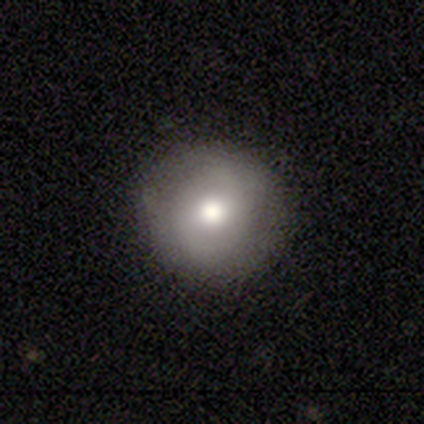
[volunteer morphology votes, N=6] A smooth galaxy with no disk features (50%, tied with featured or disk) that is round (100%).

Vote fractions:
- Smooth or featured? smooth: 50% (tied) / featured or disk: 50% (tied) / star or artifact: 0%
- How rounded? round: 100% / in between: 0% / cigar-shaped: 0%
- Merging? none: 83% / minor disturbance: 17% / major disturbance: 0% / merger: 0%